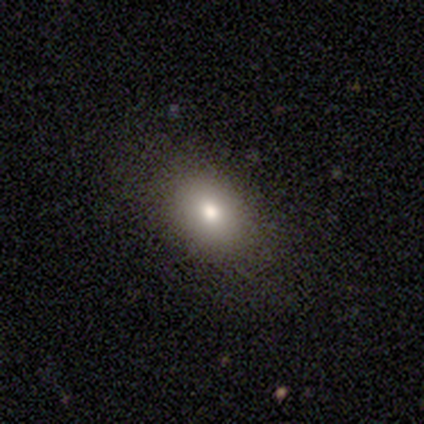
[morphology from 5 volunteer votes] Smooth or featured?
  - smooth: 40% * (tied)
  - star or artifact: 40% * (tied)
  - featured or disk: 20%
How rounded?
  - in between: 100% *
  - round: 0%
  - cigar-shaped: 0%
Merging?
  - none: 67% *
  - minor disturbance: 33%
  - major disturbance: 0%
  - merger: 0%